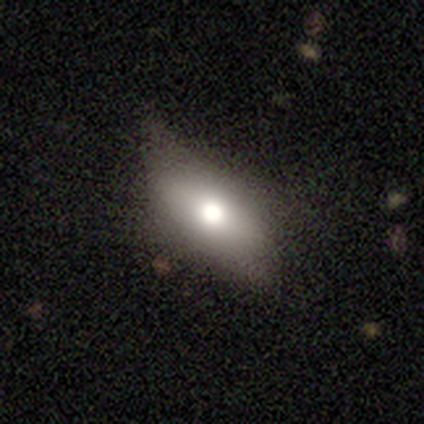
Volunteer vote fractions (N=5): This appears to be a smooth galaxy with no disk features (80%) that is in between round and cigar-shaped (100%). Merging: none (60%).